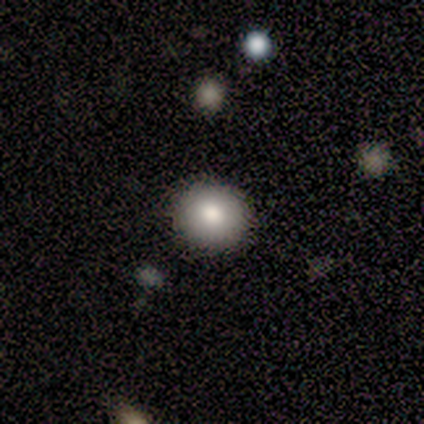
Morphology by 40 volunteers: Overall: smooth (72%). How rounded: round (86%). Merging: none (97%).